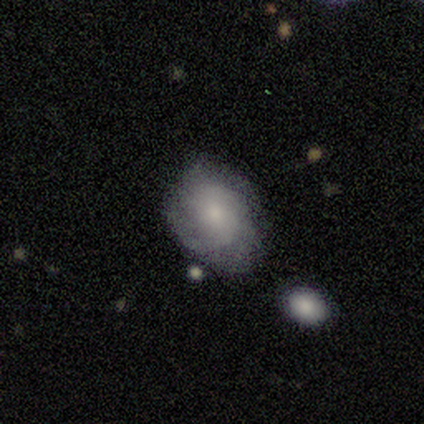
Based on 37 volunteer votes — smooth_or_featured: featured or disk (p=0.43) [alt: smooth p=0.41]
disk_edge_on: no (p=1.00)
bar: no (p=0.69) [alt: weak p=0.25]
has_spiral_arms: yes (p=0.81) [alt: no p=0.19]
spiral_winding: tight (p=0.46) [alt: medium p=0.38]
spiral_arm_count: can't tell (p=0.38) [alt: 3 p=0.31]
bulge_size: small (p=0.56) [alt: moderate p=0.44]
merging: none (p=0.58) [alt: minor disturbance p=0.35]